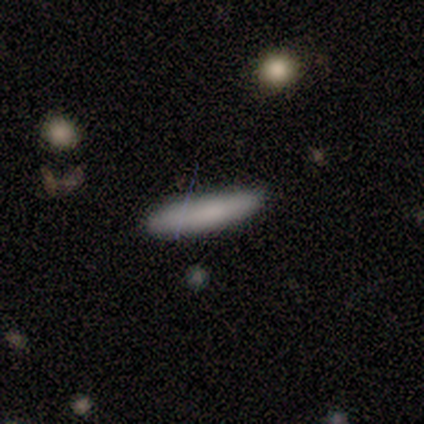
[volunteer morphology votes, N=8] smooth 100%, featured or disk 0%, star or artifact 0%. Down the decision tree: how rounded — cigar-shaped (100%); merging — none (62%).